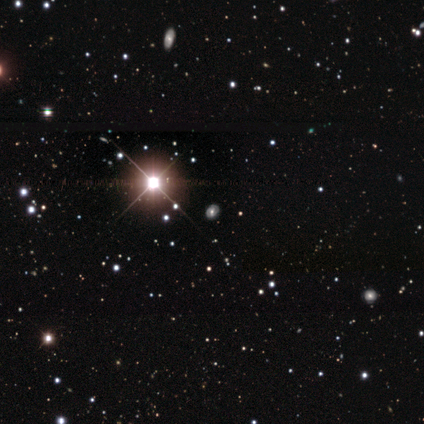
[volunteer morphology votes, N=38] Smooth or featured? 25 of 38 (66%) said star or artifact.